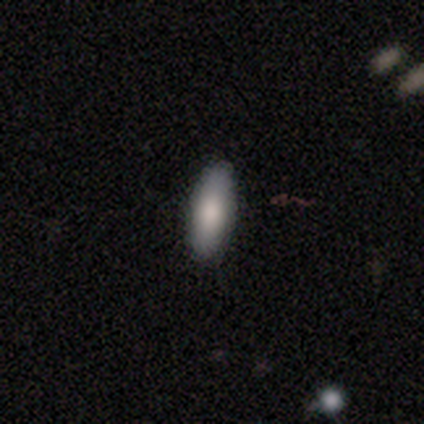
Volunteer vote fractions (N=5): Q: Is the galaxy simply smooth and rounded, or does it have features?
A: smooth — 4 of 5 (80%).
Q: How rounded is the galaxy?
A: in between — 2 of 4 (50%, tied with cigar-shaped).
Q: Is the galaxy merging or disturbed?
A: none — 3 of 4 (75%).